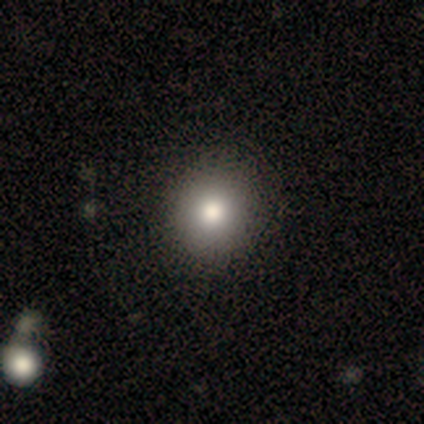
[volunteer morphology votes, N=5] A smooth galaxy with no disk features (60%) that is in between round and cigar-shaped (67%). Merging: none (100%).